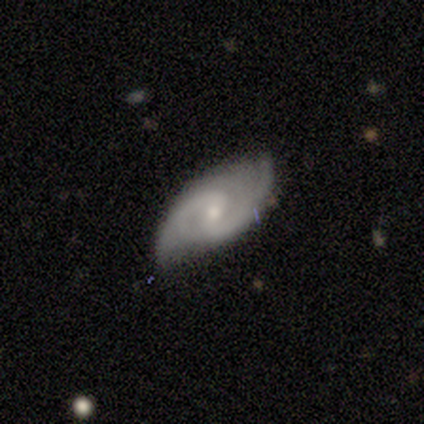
featured or disk 88%, smooth 8%, star or artifact 5%. Down the decision tree: edge-on disk — no (97%); bar — weak (59%); spiral arms — yes (100%); spiral arm count — 2 (85%); spiral winding — medium (71%); bulge size — small (62%); merging — none (82%).